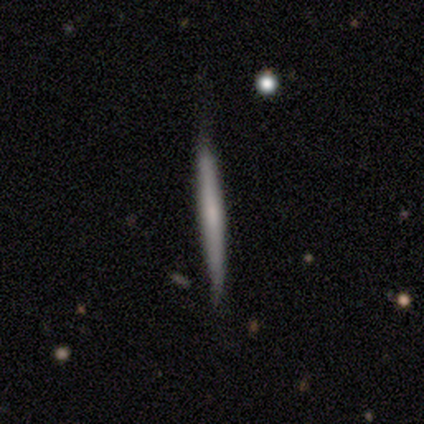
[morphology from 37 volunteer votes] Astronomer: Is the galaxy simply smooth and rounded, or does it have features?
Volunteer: featured or disk — 62%.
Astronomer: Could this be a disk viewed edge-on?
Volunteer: yes — 100%.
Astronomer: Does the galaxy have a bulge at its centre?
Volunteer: none — 74%.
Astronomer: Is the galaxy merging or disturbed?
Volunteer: none — 60%.